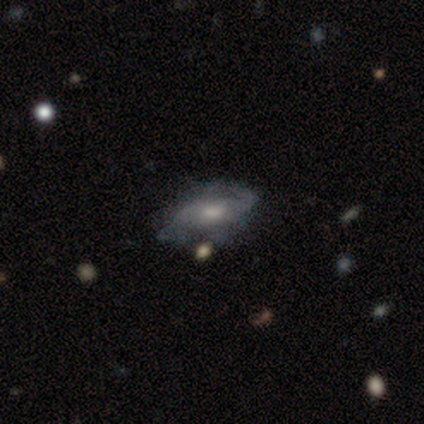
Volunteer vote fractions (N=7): Smooth or featured? 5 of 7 (71%) said featured or disk. Edge-on disk? 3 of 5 (60%) said no. Bar? 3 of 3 (100%) said no. Spiral arms? 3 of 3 (100%) said yes. Spiral winding? 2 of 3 (67%) said medium. Spiral arm count? 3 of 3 (100%) said 2. Bulge size? 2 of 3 (67%) said moderate. Merging? 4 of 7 (57%) said minor disturbance.